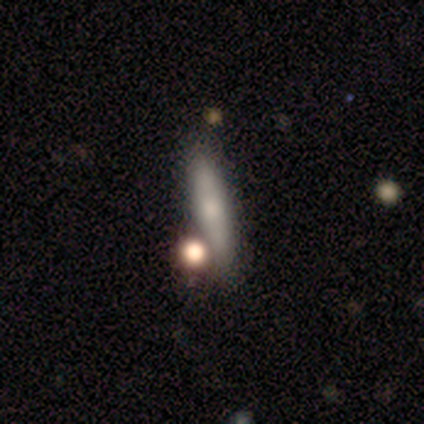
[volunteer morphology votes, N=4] A smooth galaxy with no disk features (75%) that is cigar-shaped (100%). Merging: none (25%, tied with minor disturbance, major disturbance and merger).